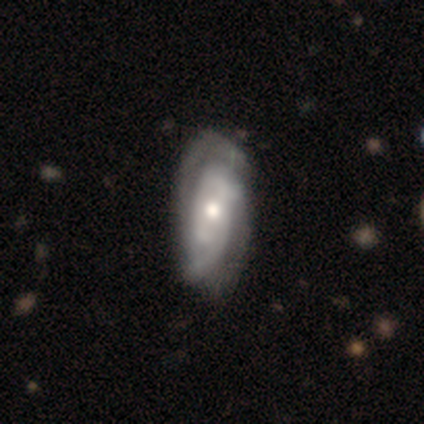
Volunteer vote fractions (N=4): smooth-or-featured: featured or disk: 100% | smooth: 0% | star or artifact: 0%
  disk-edge-on: no: 100% | yes: 0%
    bar: weak: 75% | no: 25% | strong: 0%
    has-spiral-arms: yes: 100% | no: 0%
      spiral-winding: tight: 75% | medium: 25% | loose: 0%
      spiral-arm-count: 2: 75% | 3: 25% | 1: 0% | 4: 0% | more than 4: 0% | can't tell: 0%
    bulge-size: moderate: 75% | small: 25% | dominant: 0% | large: 0% | none: 0%
  merging: none: 75% | major disturbance: 25% | minor disturbance: 0% | merger: 0%